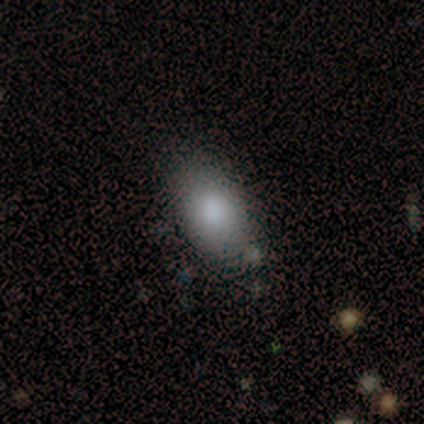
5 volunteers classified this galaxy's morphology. smooth_or_featured: smooth (p=0.80) [alt: star or artifact p=0.20]
how_rounded: in between (p=1.00)
merging: none (p=0.75) [alt: minor disturbance p=0.25]